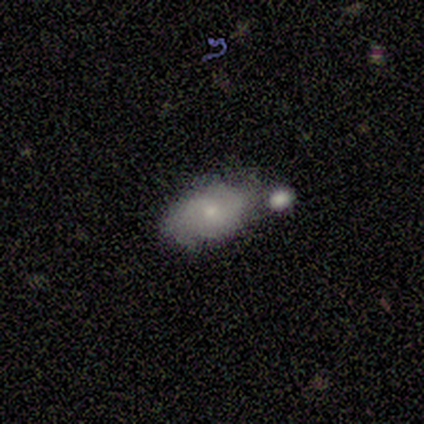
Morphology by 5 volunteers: Overall: smooth (60%; featured or disk 40%). How rounded: in between (100%). Merging: minor disturbance (40%; none 20%).